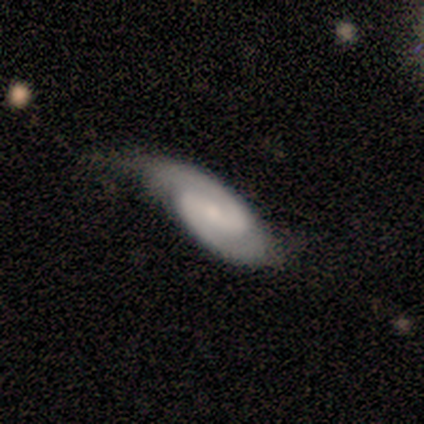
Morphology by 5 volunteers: Smooth or featured?
  - featured or disk: 100% *
  - smooth: 0%
  - star or artifact: 0%
Edge-on disk?
  - no: 100% *
  - yes: 0%
Bar?
  - no: 80% *
  - weak: 20%
  - strong: 0%
Spiral arms?
  - yes: 100% *
  - no: 0%
Spiral winding?
  - tight: 60% *
  - loose: 40%
  - medium: 0%
Spiral arm count?
  - 2: 60% *
  - can't tell: 40%
  - 1: 0%
  - 3: 0%
  - 4: 0%
  - more than 4: 0%
Bulge size?
  - small: 60% *
  - large: 20%
  - none: 20%
  - dominant: 0%
  - moderate: 0%
Merging?
  - none: 60% *
  - minor disturbance: 40%
  - major disturbance: 0%
  - merger: 0%